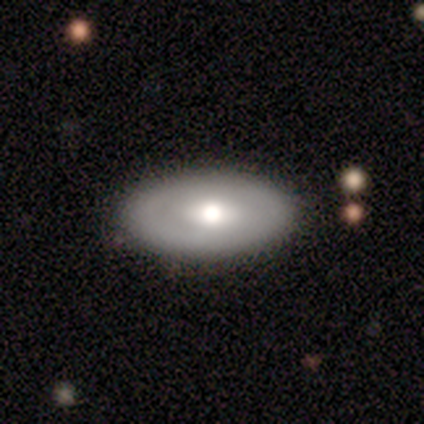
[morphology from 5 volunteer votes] A smooth galaxy with no disk features (60%) that is in between round and cigar-shaped (100%).

Vote fractions:
- Smooth or featured? smooth: 60% / featured or disk: 40% / star or artifact: 0%
- How rounded? in between: 100% / round: 0% / cigar-shaped: 0%
- Merging? none: 80% / minor disturbance: 20% / major disturbance: 0% / merger: 0%